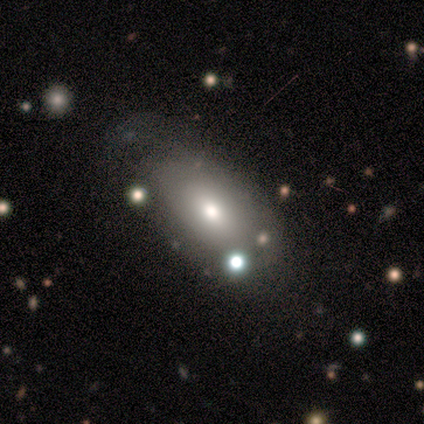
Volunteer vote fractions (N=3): Volunteers were most divided on "merging" (3-way tie): none: 33%, minor disturbance: 33%, major disturbance: 33%, merger: 0%. More confident: smooth or featured — smooth (100%); how rounded — in between (100%).